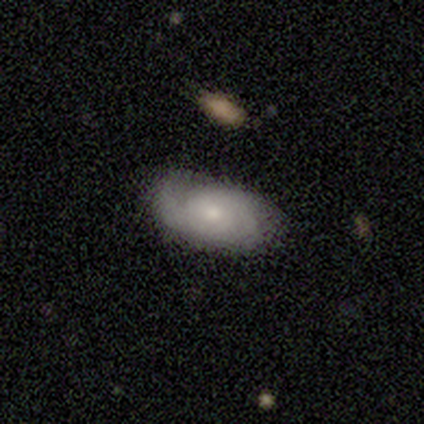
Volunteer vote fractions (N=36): A featured or disk galaxy (50%) with no bar (94%), 1 (31%, tied with can't tell) tight (69%) spiral arms (81%) and a small central bulge (81%).

Vote fractions:
- Smooth or featured? featured or disk: 50% / smooth: 44% / star or artifact: 6%
- Edge-on disk? no: 89% / yes: 11%
- Bar? no: 94% / weak: 6% / strong: 0%
- Spiral arms? yes: 81% / no: 19%
- Spiral winding? tight: 69% / medium: 23% / loose: 8%
- Spiral arm count? 1: 31% (tied) / can't tell: 31% (tied) / 2: 23% / 3: 15% / 4: 0% / more than 4: 0%
- Bulge size? small: 81% / moderate: 12% / large: 6% / dominant: 0% / none: 0%
- Merging? none: 79% / major disturbance: 12% / minor disturbance: 9% / merger: 0%